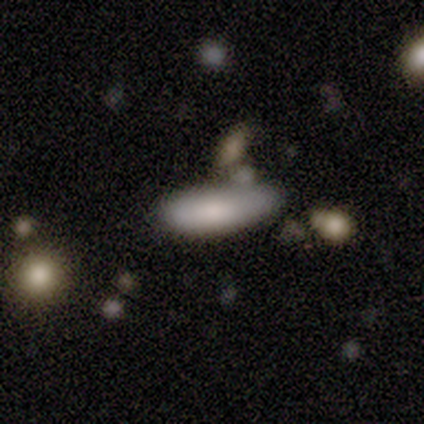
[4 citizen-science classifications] This is clearly a smooth galaxy (100%). How rounded: possibly in between (50%, tied with cigar-shaped). Merging: marginally none (25%, tied with minor disturbance, major disturbance and merger).